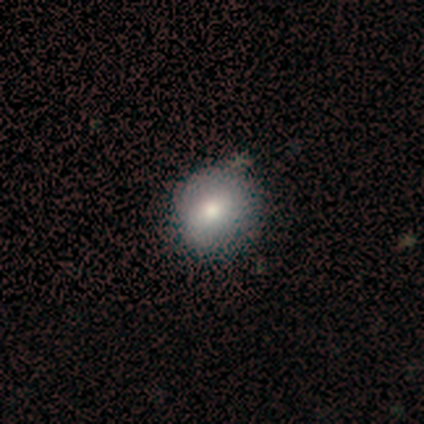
Q: Smooth or featured?
A: smooth (100%)
Q: How rounded?
A: round (100%)
Q: Merging?
A: none (60%); runner-up: minor disturbance (40%)